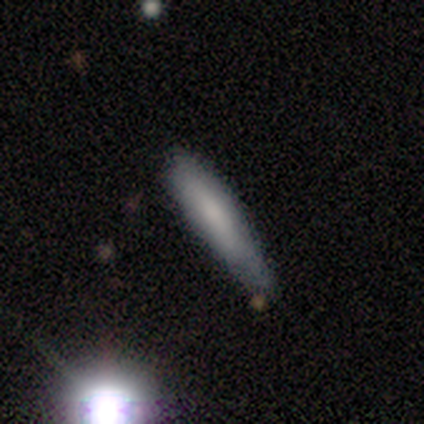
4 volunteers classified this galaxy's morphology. smooth_or_featured: smooth (p=0.75) [alt: star or artifact p=0.25]
how_rounded: cigar-shaped (p=1.00)
merging: none (p=0.67) [alt: minor disturbance p=0.33]